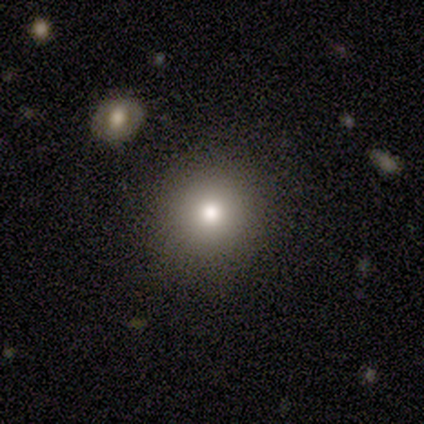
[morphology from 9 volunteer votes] type=smooth (89%); roundness=round (100%); merging=none (100%).